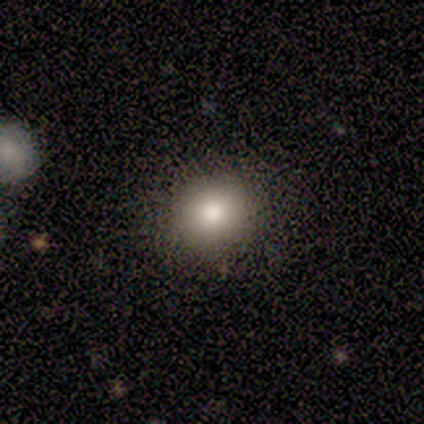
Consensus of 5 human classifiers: Smooth or featured? 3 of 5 (60%) said smooth. How rounded? 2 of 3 (67%) said round. Merging? 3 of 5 (60%) said minor disturbance.